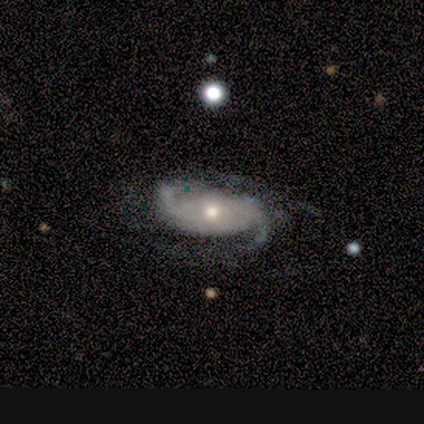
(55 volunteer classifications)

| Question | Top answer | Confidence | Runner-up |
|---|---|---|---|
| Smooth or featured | featured or disk | 89% | smooth (5%) |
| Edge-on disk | no | 96% | yes (4%) |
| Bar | no | 79% | strong (13%) |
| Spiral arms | yes | 91% | no (9%) |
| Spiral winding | medium | 42% | loose (30%) |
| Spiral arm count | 2 | 77% | can't tell (12%) |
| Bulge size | moderate | 60% | small (34%) |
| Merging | none | 52% | minor disturbance (33%) |